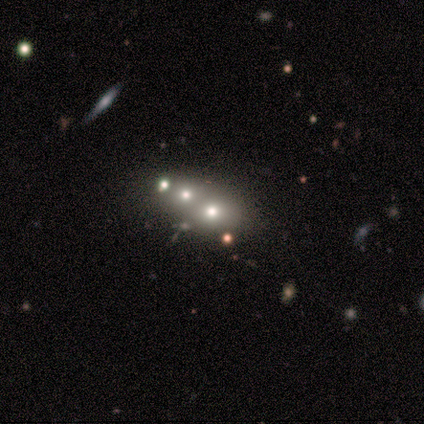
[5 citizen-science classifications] Volunteers were most divided on "smooth or featured": smooth: 60%, featured or disk: 20%, star or artifact: 20%. More confident: how rounded — round (100%); merging — none (75%).